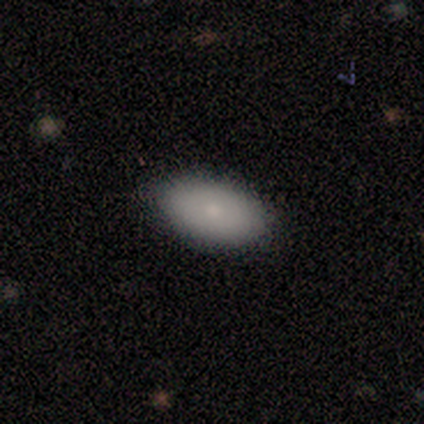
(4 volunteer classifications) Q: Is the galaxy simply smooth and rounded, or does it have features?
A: smooth — 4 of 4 (100%).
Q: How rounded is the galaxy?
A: in between — 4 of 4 (100%).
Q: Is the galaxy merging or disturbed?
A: none — 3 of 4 (75%).